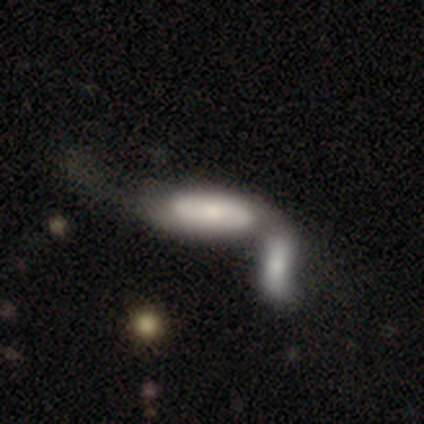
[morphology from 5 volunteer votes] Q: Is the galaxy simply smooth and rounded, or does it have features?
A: featured or disk — 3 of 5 (60%).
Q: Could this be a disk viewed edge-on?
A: no — 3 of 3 (100%).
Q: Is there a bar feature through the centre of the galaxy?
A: no — 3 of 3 (100%).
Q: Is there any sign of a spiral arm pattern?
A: no — 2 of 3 (67%).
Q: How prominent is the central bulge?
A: moderate — 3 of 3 (100%).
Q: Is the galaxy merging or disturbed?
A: merger — 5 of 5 (100%).